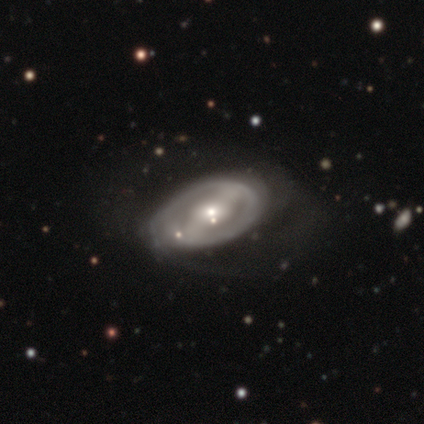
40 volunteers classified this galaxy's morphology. smooth_or_featured: featured or disk (p=0.85) [alt: smooth p=0.15]
disk_edge_on: no (p=0.97) [alt: yes p=0.03]
bar: strong (p=0.55) [alt: weak p=0.24]
has_spiral_arms: yes (p=0.55) [alt: no p=0.45]
spiral_winding: tight (p=0.56) [alt: medium p=0.33]
spiral_arm_count: 2 (p=0.78) [alt: can't tell p=0.22]
bulge_size: small (p=0.55) [alt: moderate p=0.33]
merging: none (p=0.40) [alt: minor disturbance p=0.33]